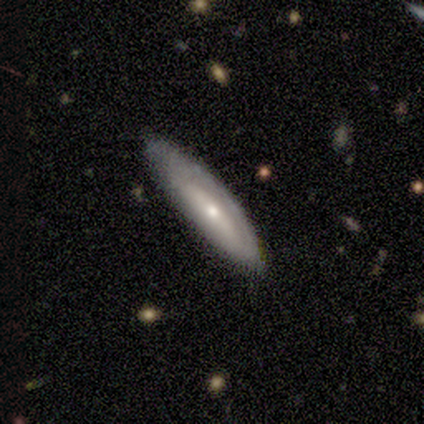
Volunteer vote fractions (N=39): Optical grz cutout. It shows a featured or disk galaxy (62%) with no bar (77%), tight (100%) spiral arms (54%) and a small central bulge (77%). Merging: none (59%).